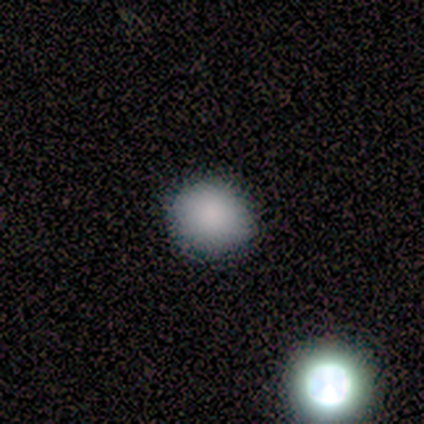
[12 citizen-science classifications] Q: Smooth or featured?
A: smooth (75%); runner-up: star or artifact (17%)
Q: How rounded?
A: round (89%); runner-up: in between (11%)
Q: Merging?
A: none (90%); runner-up: minor disturbance (10%)